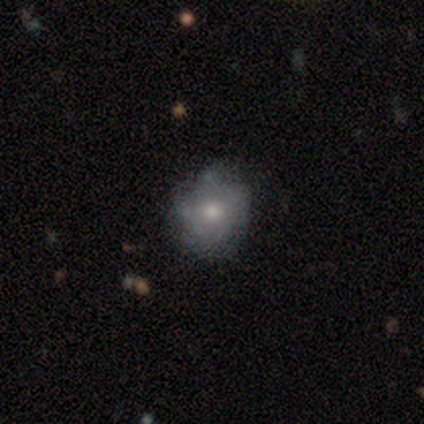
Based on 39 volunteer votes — Morphology: type=smooth (46%); roundness=round (78%); merging=none (61%).